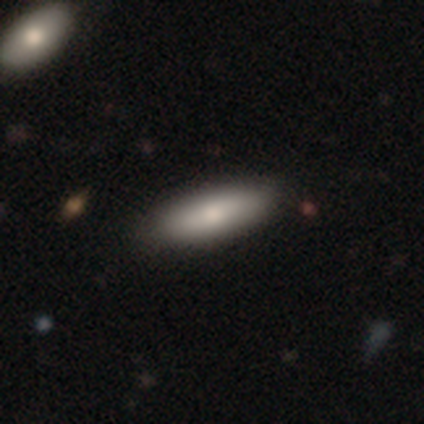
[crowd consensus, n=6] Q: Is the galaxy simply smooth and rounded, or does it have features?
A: smooth — 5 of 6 (83%).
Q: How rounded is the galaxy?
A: in between — 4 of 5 (80%).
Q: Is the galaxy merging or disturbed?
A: none — 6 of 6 (100%).